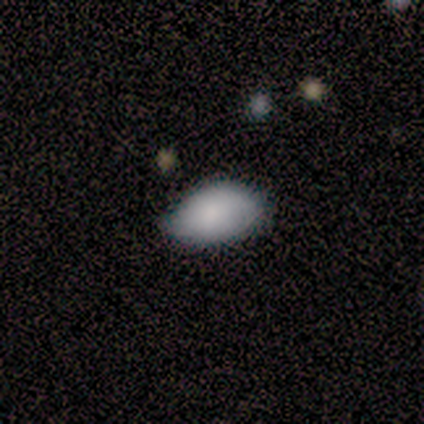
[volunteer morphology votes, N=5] Smooth or featured: smooth — 100%
How rounded: in between — 80% (round — 20%)
Merging: none — 60% (minor disturbance — 20%)